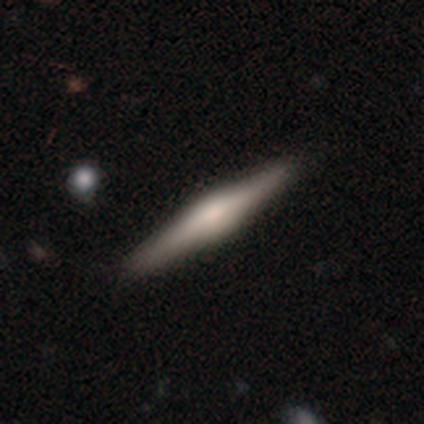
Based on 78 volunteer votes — Q: Smooth or featured?
A: featured or disk (69%); runner-up: smooth (28%)
Q: Edge-on disk?
A: yes (100%)
Q: Edge-on bulge?
A: rounded (78%); runner-up: boxy (20%)
Q: Merging?
A: none (47%); runner-up: minor disturbance (4%)